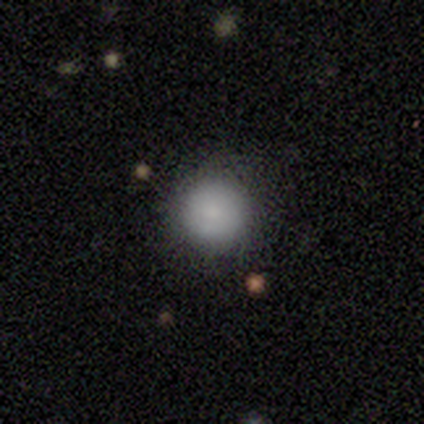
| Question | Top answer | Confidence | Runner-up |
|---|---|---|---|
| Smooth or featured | featured or disk | 60% | smooth (40%) |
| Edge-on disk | no | 100% | — |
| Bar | no | 100% | — |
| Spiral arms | no | 100% | — |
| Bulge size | small | 67% | moderate (33%) |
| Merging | none | 100% | — |